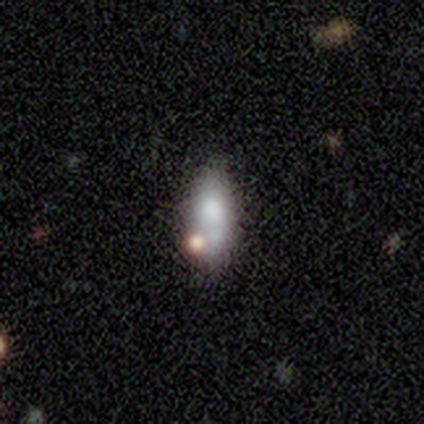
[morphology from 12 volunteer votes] Smooth or featured: smooth — 67% (featured or disk — 17%)
How rounded: in between — 88% (cigar-shaped — 12%)
Merging: minor disturbance — 40% (none — 30%)